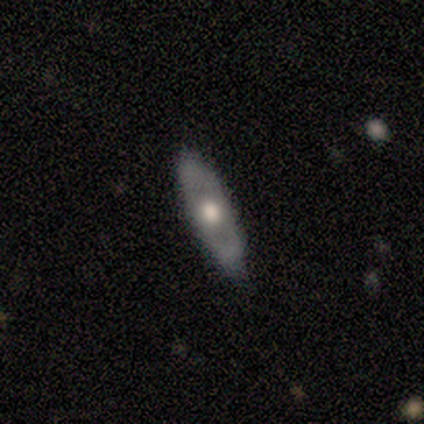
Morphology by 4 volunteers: Overall: featured or disk (75%). Edge-on disk: no (67%; yes 33%). Bar: no (100%). Spiral arms: no (100%). Bulge size: large (50%, tied with moderate). Merging: none (100%).